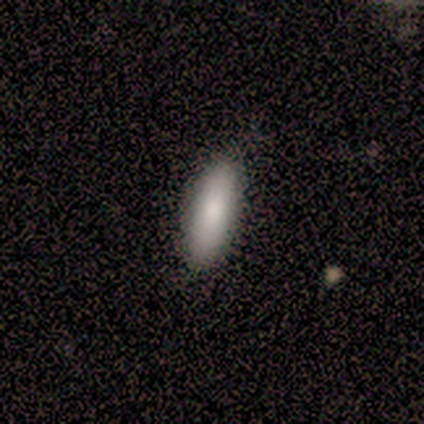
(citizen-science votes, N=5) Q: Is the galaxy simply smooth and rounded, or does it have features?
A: smooth — 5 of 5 (100%).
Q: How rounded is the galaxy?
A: cigar-shaped — 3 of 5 (60%).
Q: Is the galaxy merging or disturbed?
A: none — 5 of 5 (100%).